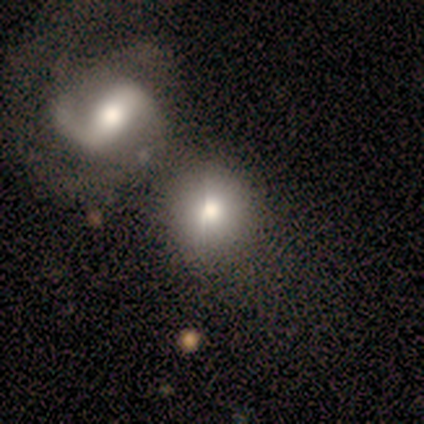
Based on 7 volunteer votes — This appears to be a smooth galaxy with no disk features (57%) that is round (50%, tied with in between). Merging: none (67%).